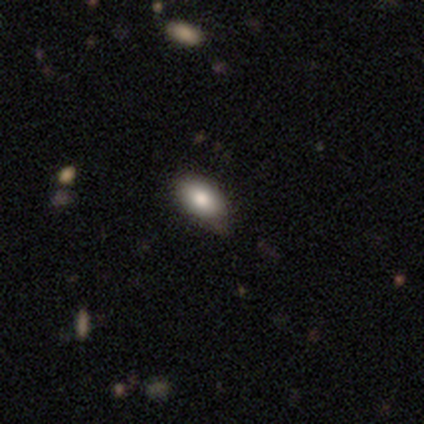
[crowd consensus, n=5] Morphology: type=smooth (60%); roundness=in between (100%); merging=none (75%).